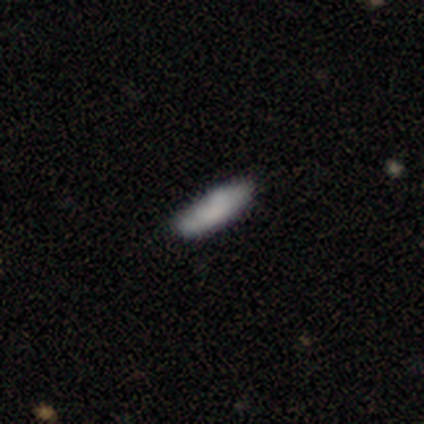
smooth 100%, featured or disk 0%, star or artifact 0%. Down the decision tree: how rounded — in between (50%, tied with cigar-shaped); merging — none (100%).